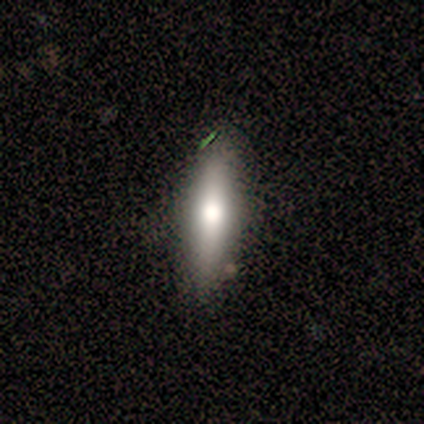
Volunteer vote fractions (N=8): Smooth or featured? 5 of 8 (62%) said smooth. How rounded? 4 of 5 (80%) said cigar-shaped. Merging? 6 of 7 (86%) said none.